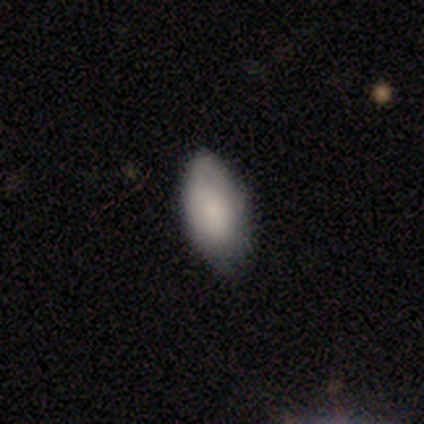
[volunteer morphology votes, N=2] Smooth or featured? smooth (100%)
How rounded? in between (100%)
Merging? minor disturbance (100%)